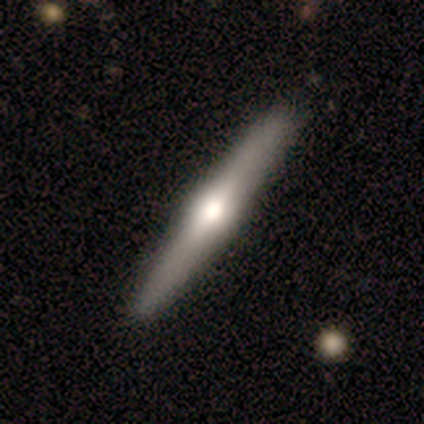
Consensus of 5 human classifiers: Smooth or featured?
  - featured or disk: 60% *
  - smooth: 40%
  - star or artifact: 0%
Edge-on disk?
  - yes: 100% *
  - no: 0%
Edge-on bulge?
  - rounded: 100% *
  - boxy: 0%
  - none: 0%
Merging?
  - none: 100% *
  - minor disturbance: 0%
  - major disturbance: 0%
  - merger: 0%